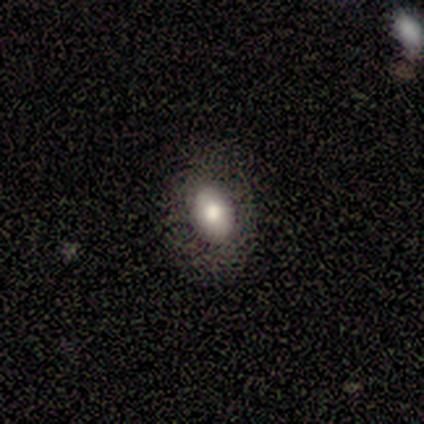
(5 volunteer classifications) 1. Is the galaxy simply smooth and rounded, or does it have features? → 60% smooth, 40% featured or disk, 0% star or artifact.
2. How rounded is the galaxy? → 67% in between, 33% round, 0% cigar-shaped.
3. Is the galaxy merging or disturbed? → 100% none, 0% minor disturbance, 0% major disturbance, 0% merger.